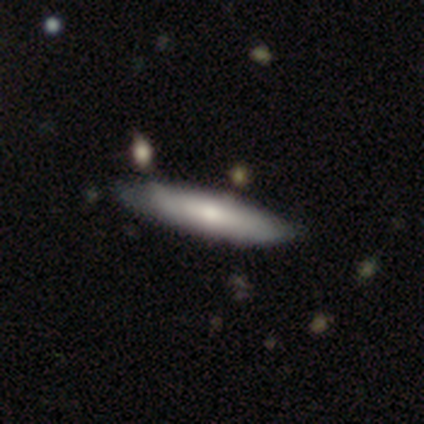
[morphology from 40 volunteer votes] A smooth galaxy with no disk features (68%) that is cigar-shaped (89%).

Vote fractions:
- Smooth or featured? smooth: 68% / featured or disk: 30% / star or artifact: 2%
- How rounded? cigar-shaped: 89% / in between: 11% / round: 0%
- Merging? none: 64% / minor disturbance: 28% / merger: 5% / major disturbance: 3%